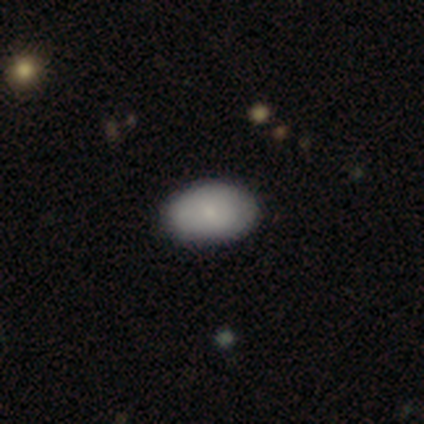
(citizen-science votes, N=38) Q: Smooth or featured?
A: smooth (87%); runner-up: featured or disk (8%)
Q: How rounded?
A: in between (85%); runner-up: round (15%)
Q: Merging?
A: none (86%); runner-up: minor disturbance (8%)